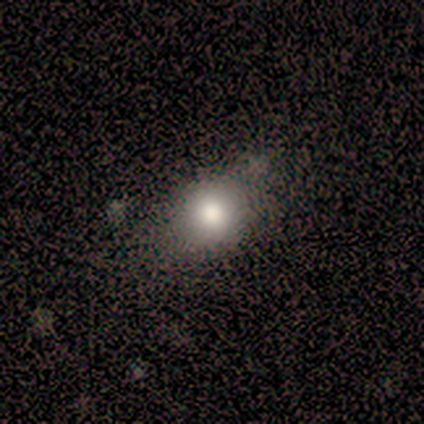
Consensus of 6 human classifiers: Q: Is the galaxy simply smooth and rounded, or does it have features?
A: smooth — 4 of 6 (67%).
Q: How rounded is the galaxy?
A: in between — 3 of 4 (75%).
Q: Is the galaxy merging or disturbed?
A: none — 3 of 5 (60%).